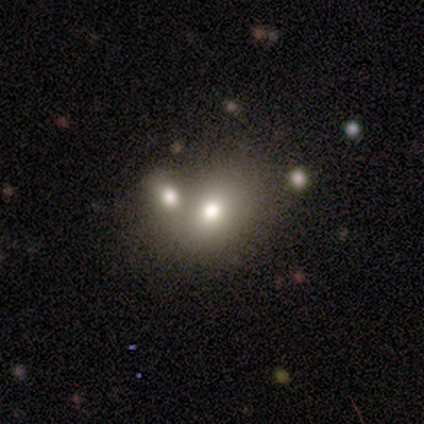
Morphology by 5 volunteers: A smooth galaxy with no disk features (100%) that is in between round and cigar-shaped (80%).

Vote fractions:
- Smooth or featured? smooth: 100% / featured or disk: 0% / star or artifact: 0%
- How rounded? in between: 80% / round: 20% / cigar-shaped: 0%
- Merging? none: 60% / merger: 40% / minor disturbance: 0% / major disturbance: 0%